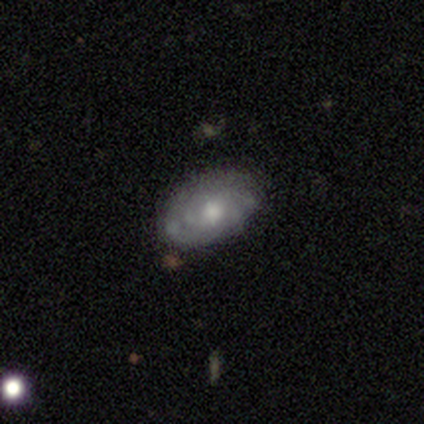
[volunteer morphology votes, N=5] Overall: featured or disk (80%). Edge-on disk: no (75%). Bar: weak (67%; no 33%). Spiral arms: yes (67%; no 33%). Spiral arm count: more than 4 (50%, tied with can't tell). Spiral winding: tight (50%, tied with medium). Bulge size: moderate (67%; large 33%). Merging: none (80%).